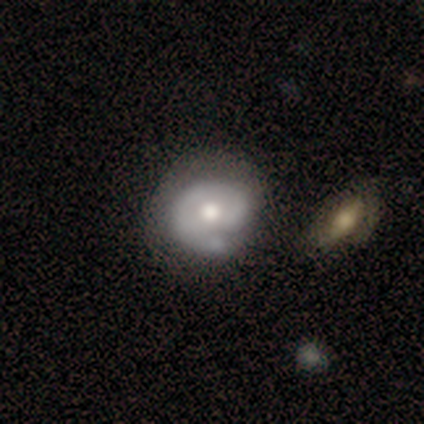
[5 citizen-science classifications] smooth 60%, featured or disk 40%, star or artifact 0%. Down the decision tree: how rounded — round (100%); merging — none (80%).